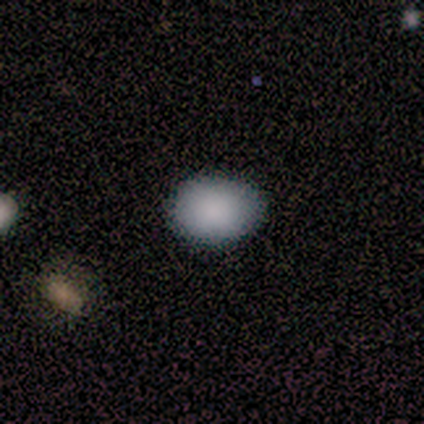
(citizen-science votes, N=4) A smooth galaxy with no disk features (100%) that is in between round and cigar-shaped (100%). Merging: none (75%).